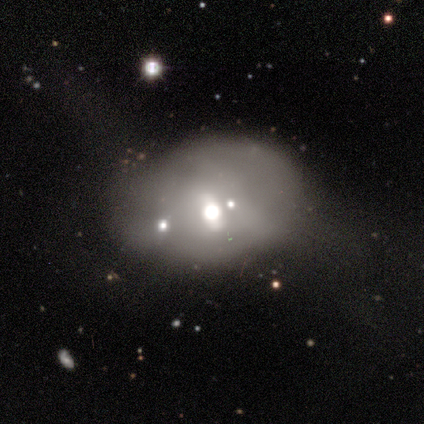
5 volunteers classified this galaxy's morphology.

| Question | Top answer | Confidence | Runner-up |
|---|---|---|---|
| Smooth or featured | featured or disk | 60% | smooth (20%) |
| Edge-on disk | no | 100% | — |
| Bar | strong | 33% | tied: weak (33%), no (33%) |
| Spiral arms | no | 100% | — |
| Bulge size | moderate | 67% | small (33%) |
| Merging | minor disturbance | 75% | merger (25%) |